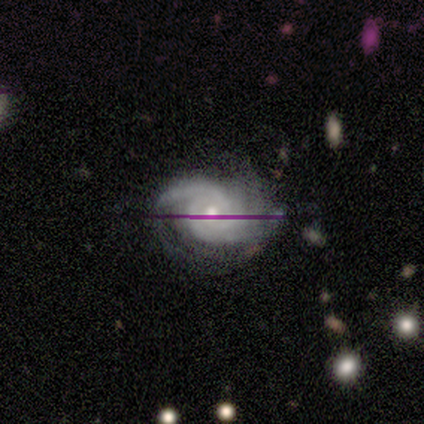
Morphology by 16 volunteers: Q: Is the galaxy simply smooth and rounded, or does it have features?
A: featured or disk — 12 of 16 (75%).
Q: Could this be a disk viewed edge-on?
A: no — 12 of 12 (100%).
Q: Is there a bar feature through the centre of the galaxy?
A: no — 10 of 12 (83%).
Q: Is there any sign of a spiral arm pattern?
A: yes — 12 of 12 (100%).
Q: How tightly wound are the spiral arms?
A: medium — 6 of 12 (50%).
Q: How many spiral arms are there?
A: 2 — 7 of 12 (58%).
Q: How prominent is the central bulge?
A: moderate — 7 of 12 (58%).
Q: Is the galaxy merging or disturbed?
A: none — 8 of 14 (57%).